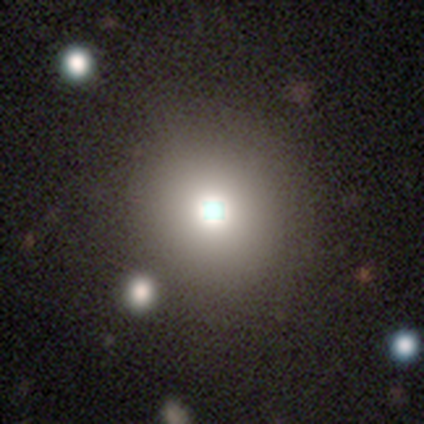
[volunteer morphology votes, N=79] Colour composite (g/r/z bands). It shows a smooth galaxy with no disk features (73%) that is round (90%). Merging: none (35%).